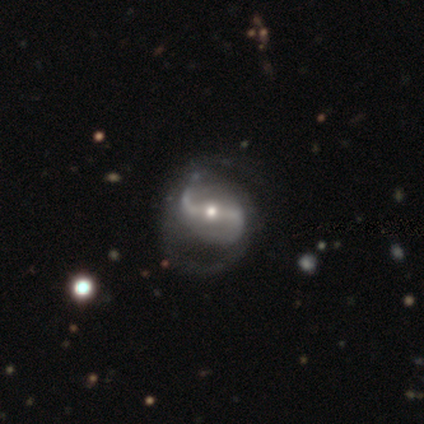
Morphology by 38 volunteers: smooth-or-featured: featured or disk: 92% | smooth: 5% | star or artifact: 3%
  disk-edge-on: no: 100% | yes: 0%
    bar: strong: 51% | weak: 31% | no: 17%
    has-spiral-arms: yes: 97% | no: 3%
      spiral-winding: loose: 59% | medium: 38% | tight: 3%
      spiral-arm-count: 2: 91% | 1: 6% | 3: 3% | 4: 0% | more than 4: 0% | can't tell: 0%
    bulge-size: moderate: 60% | small: 37% | large: 3% | dominant: 0% | none: 0%
  merging: none: 35% | major disturbance: 16% | minor disturbance: 11% | merger: 0%